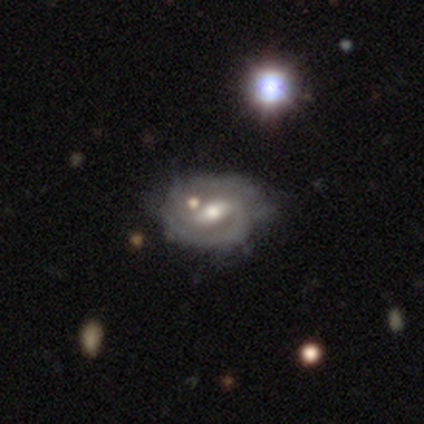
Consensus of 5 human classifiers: This appears to be a featured or disk galaxy (60%) with a weak bar (100%), 1 (33%, tied with 2 and can't tell) tight (67%) spiral arms (100%) and a small central bulge (67%). Merging: none (25%, tied with minor disturbance, major disturbance and merger).